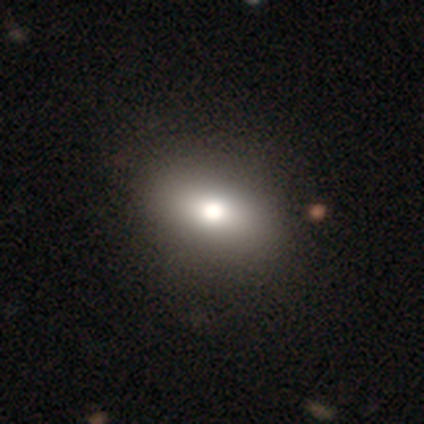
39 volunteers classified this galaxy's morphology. Volunteers were most divided on "smooth or featured": smooth: 67%, featured or disk: 18%, star or artifact: 15%. More confident: how rounded — in between (81%); merging — none (61%).